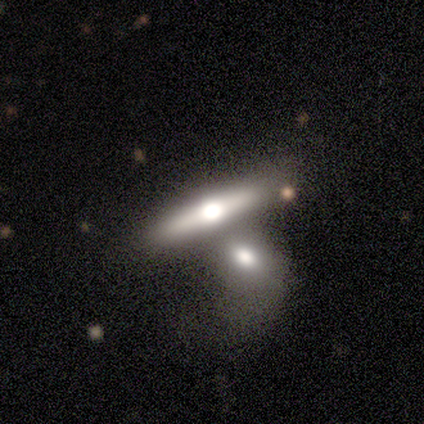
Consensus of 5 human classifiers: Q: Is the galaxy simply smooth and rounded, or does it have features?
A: smooth — 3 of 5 (60%).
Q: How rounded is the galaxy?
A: cigar-shaped — 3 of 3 (100%).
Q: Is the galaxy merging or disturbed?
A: merger — 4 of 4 (100%).